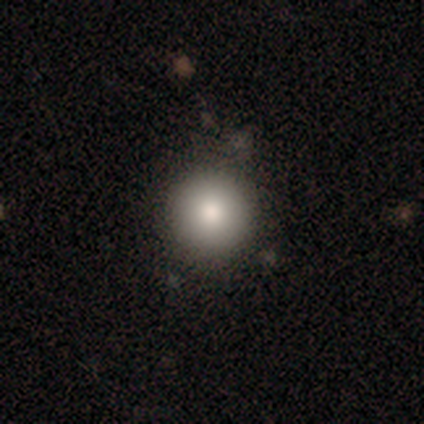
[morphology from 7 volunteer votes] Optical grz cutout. It shows a smooth galaxy with no disk features (86%) that is round (100%). Merging: none (83%).